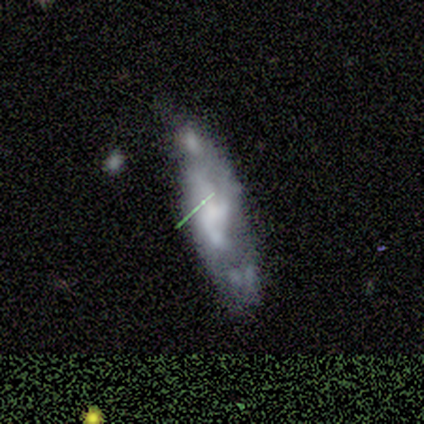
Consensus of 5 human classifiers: Q: Smooth or featured?
A: featured or disk (80%); runner-up: smooth (20%)
Q: Edge-on disk?
A: no (100%)
Q: Bar?
A: no (75%); runner-up: weak (25%)
Q: Spiral arms?
A: no (75%); runner-up: yes (25%)
Q: Bulge size?
A: none (50%); runner-up: large (25%)
Q: Merging?
A: minor disturbance (40%); tied with: major disturbance (40%)